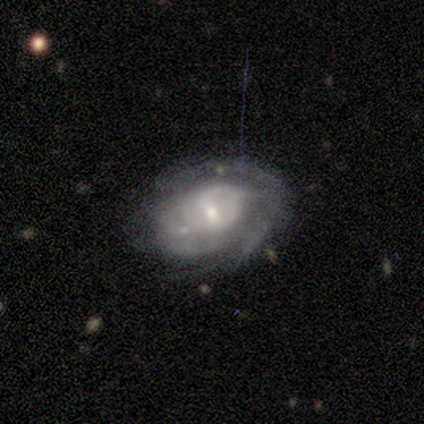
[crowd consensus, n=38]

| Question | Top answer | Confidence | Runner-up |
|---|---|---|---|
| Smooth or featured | featured or disk | 84% | smooth (13%) |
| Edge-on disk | no | 97% | yes (3%) |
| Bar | no | 52% | weak (42%) |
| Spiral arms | yes | 77% | no (23%) |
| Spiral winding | tight | 71% | medium (21%) |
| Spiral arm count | can't tell | 62% | 4 (17%) |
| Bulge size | small | 52% | moderate (35%) |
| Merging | none | 51% | minor disturbance (22%) |